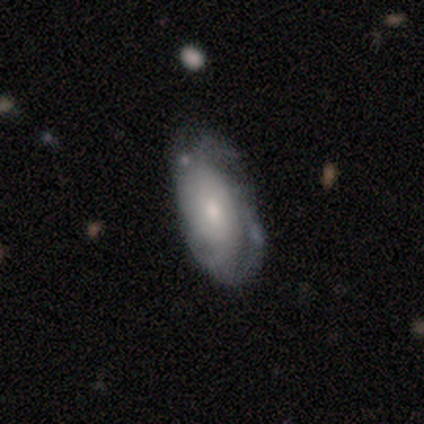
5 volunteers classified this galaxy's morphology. smooth-or-featured: featured or disk: 100% | smooth: 0% | star or artifact: 0%
  disk-edge-on: no: 100% | yes: 0%
    bar: no: 60% | weak: 40% | strong: 0%
    has-spiral-arms: yes: 100% | no: 0%
      spiral-winding: tight: 40% (tied) | medium: 40% (tied) | loose: 20%
      spiral-arm-count: can't tell: 40% | 3: 20% | 4: 20% | more than 4: 20% | 1: 0% | 2: 0%
    bulge-size: moderate: 60% | small: 40% | dominant: 0% | large: 0% | none: 0%
  merging: none: 80% | minor disturbance: 20% | major disturbance: 0% | merger: 0%